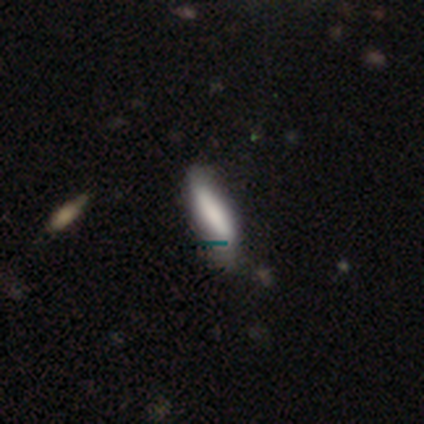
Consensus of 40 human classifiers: A smooth galaxy with no disk features (75%) that is cigar-shaped (70%). Merging: none (57%).